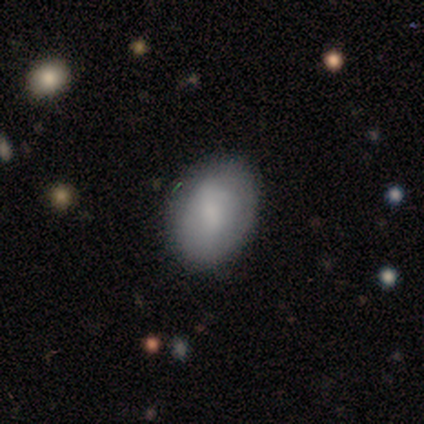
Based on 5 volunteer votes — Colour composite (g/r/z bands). It shows a smooth galaxy with no disk features (100%) that is in between round and cigar-shaped (80%). Merging: none (80%).